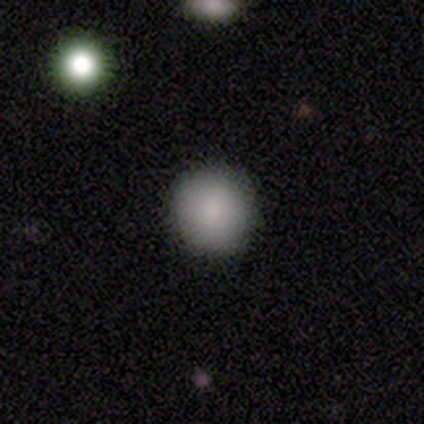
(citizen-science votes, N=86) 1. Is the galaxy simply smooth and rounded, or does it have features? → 90% smooth, 7% featured or disk, 3% star or artifact.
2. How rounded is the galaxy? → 91% round, 9% in between, 0% cigar-shaped.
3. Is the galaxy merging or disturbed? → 98% none, 1% minor disturbance, 1% major disturbance, 0% merger.